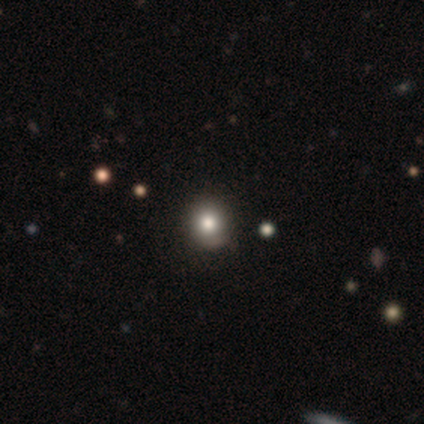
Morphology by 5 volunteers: Smooth or featured?
  - smooth: 100% *
  - featured or disk: 0%
  - star or artifact: 0%
How rounded?
  - round: 100% *
  - in between: 0%
  - cigar-shaped: 0%
Merging?
  - none: 100% *
  - minor disturbance: 0%
  - major disturbance: 0%
  - merger: 0%